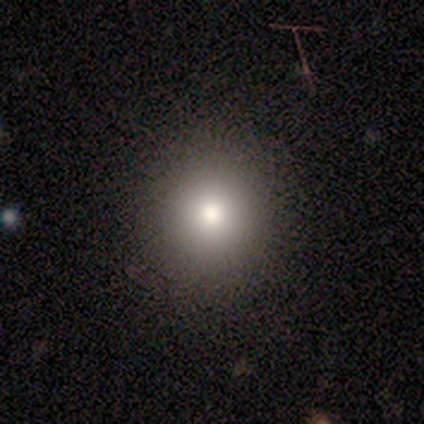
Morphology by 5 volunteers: A smooth galaxy with no disk features (60%) that is round (67%). Merging: none (75%).